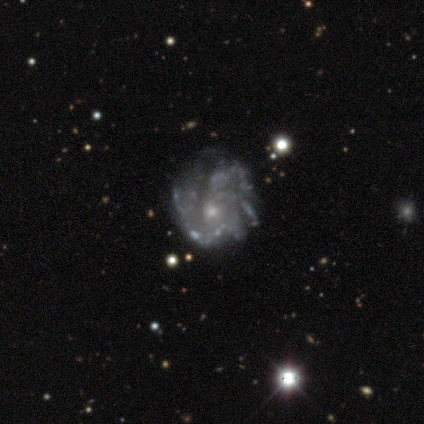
Smooth or featured: featured or disk — 90% (smooth — 8%)
Edge-on disk: no — 94% (yes — 6%)
Bar: no — 100%
Spiral arms: yes — 85% (no — 15%)
Spiral winding: medium — 48% (tight — 38%)
Spiral arm count: can't tell — 55% (3 — 17%)
Bulge size: small — 65% (moderate — 26%)
Merging: none — 64% (minor disturbance — 23%)